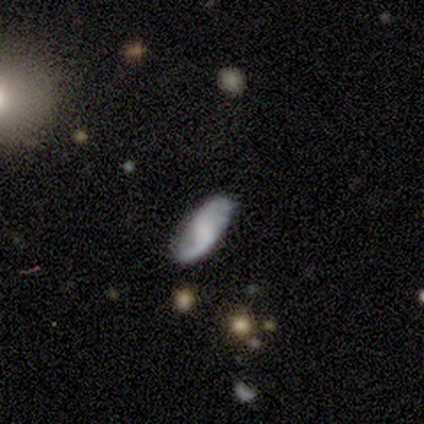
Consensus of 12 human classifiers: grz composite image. It shows a featured or disk galaxy (58%) with no bar (57%), 2 (83%) loose (100%) spiral arms (86%) and no central bulge (43%). Merging: none (75%).